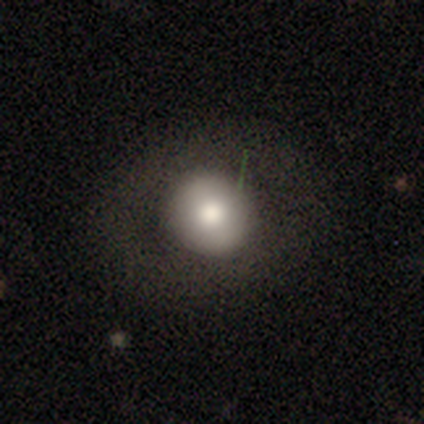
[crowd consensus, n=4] Volunteers were most divided on "smooth or featured": smooth: 75%, featured or disk: 25%, star or artifact: 0%. More confident: how rounded — round (100%); merging — none (100%).